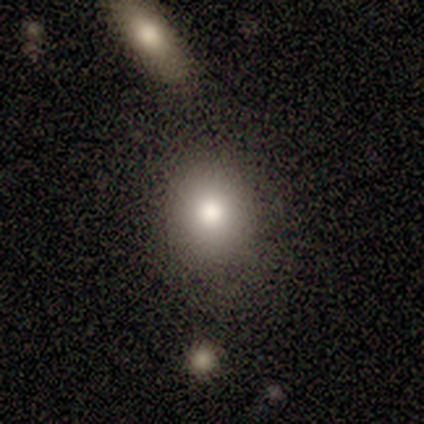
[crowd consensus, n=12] Smooth or featured? 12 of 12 (100%) said smooth. How rounded? 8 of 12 (67%) said round. Merging? 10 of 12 (83%) said none.